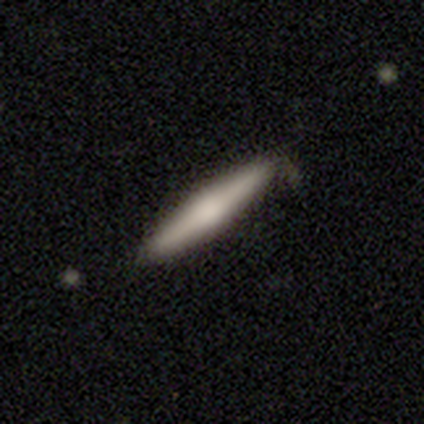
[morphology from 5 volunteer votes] Smooth or featured? featured or disk (60%)
Edge-on disk? yes (100%)
Edge-on bulge? rounded (67%)
Merging? none (100%)